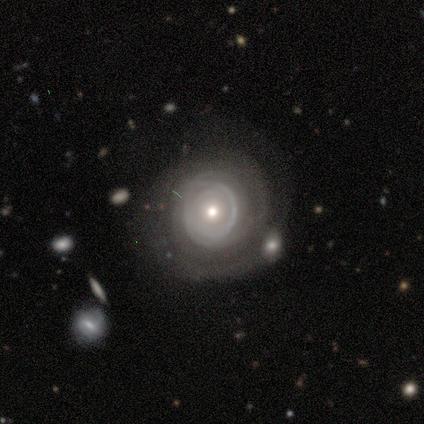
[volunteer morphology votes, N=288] featured or disk 64%, smooth 25%, star or artifact 11%. Down the decision tree: edge-on disk — no (93%); bar — no (80%); spiral arms — yes (72%); spiral arm count — can't tell (47%); spiral winding — tight (67%); bulge size — small (49%); merging — none (58%).